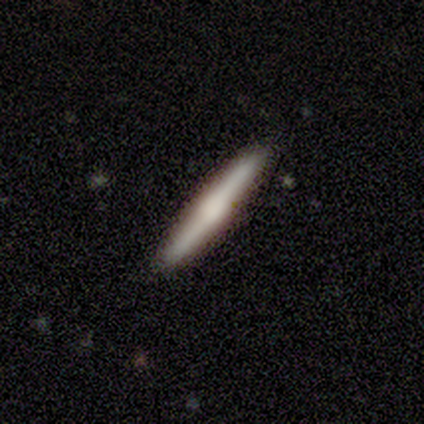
A smooth galaxy with no disk features (67%) that is cigar-shaped (100%). Merging: none (78%).